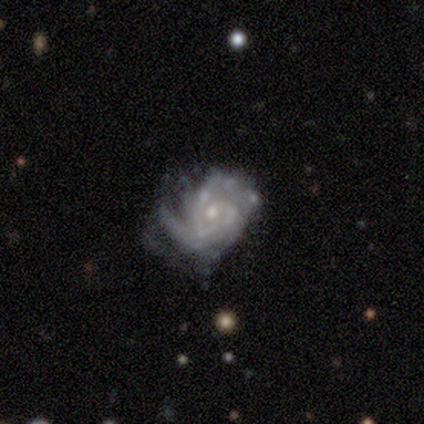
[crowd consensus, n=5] smooth-or-featured: featured or disk: 80% | star or artifact: 20% | smooth: 0%
  disk-edge-on: no: 100% | yes: 0%
    bar: no: 75% | weak: 25% | strong: 0%
    has-spiral-arms: yes: 75% | no: 25%
      spiral-winding: tight: 67% | loose: 33% | medium: 0%
      spiral-arm-count: can't tell: 67% | 4: 33% | 1: 0% | 2: 0% | 3: 0% | more than 4: 0%
    bulge-size: small: 75% | moderate: 25% | dominant: 0% | large: 0% | none: 0%
  merging: major disturbance: 50% | none: 25% | minor disturbance: 25% | merger: 0%